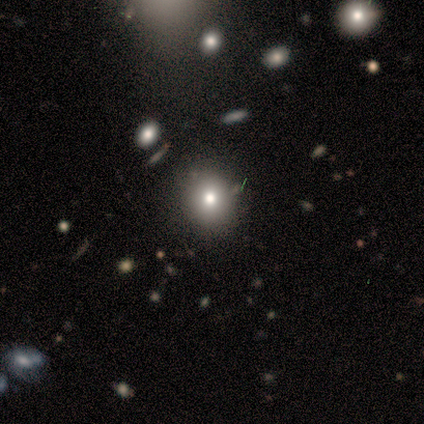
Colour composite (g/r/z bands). It shows a smooth galaxy with no disk features (40%, tied with star or artifact) that is round (50%, tied with in between). Merging: none (33%, tied with minor disturbance and merger).